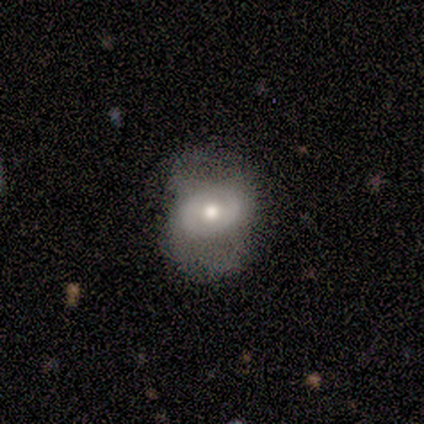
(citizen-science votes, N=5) Q: Smooth or featured?
A: smooth (60%); runner-up: featured or disk (40%)
Q: How rounded?
A: in between (100%)
Q: Merging?
A: minor disturbance (40%); tied with: major disturbance (40%)